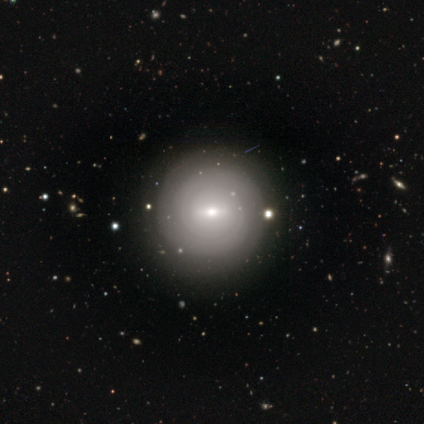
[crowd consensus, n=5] A featured or disk galaxy (60%) with a weak bar (67%), 2 (50%, tied with can't tell) tight (100%) spiral arms (67%) and a small central bulge (100%).

Vote fractions:
- Smooth or featured? featured or disk: 60% / smooth: 40% / star or artifact: 0%
- Edge-on disk? no: 100% / yes: 0%
- Bar? weak: 67% / no: 33% / strong: 0%
- Spiral arms? yes: 67% / no: 33%
- Spiral winding? tight: 100% / medium: 0% / loose: 0%
- Spiral arm count? 2: 50% (tied) / can't tell: 50% (tied) / 1: 0% / 3: 0% / 4: 0% / more than 4: 0%
- Bulge size? small: 100% / dominant: 0% / large: 0% / moderate: 0% / none: 0%
- Merging? none: 60% / minor disturbance: 20% / major disturbance: 20% / merger: 0%